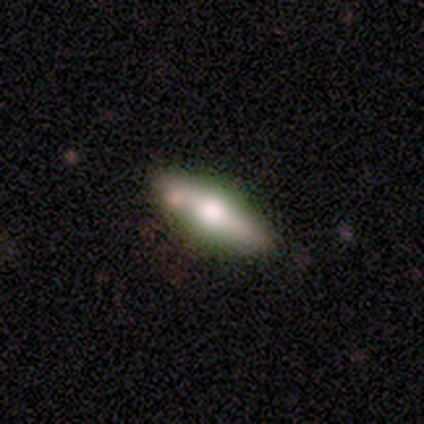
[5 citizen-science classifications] This appears to be a smooth galaxy with no disk features (60%) that is in between round and cigar-shaped (67%). Merging: none (75%).